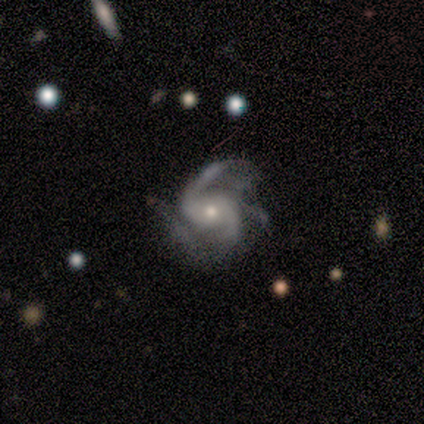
Morphology: type=featured or disk (83%); edge-on=no (100%); bar=no (80%); spiral arms=yes (100%); winding=medium (40%, tied with loose); arm count=2 (40%, tied with can't tell); bulge=small (60%); merging=none (83%).